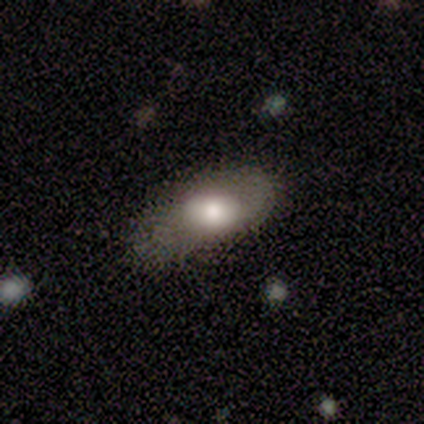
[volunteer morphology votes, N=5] Smooth or featured? smooth (100%)
How rounded? in between (60%)
Merging? none (40%, tied with minor disturbance)